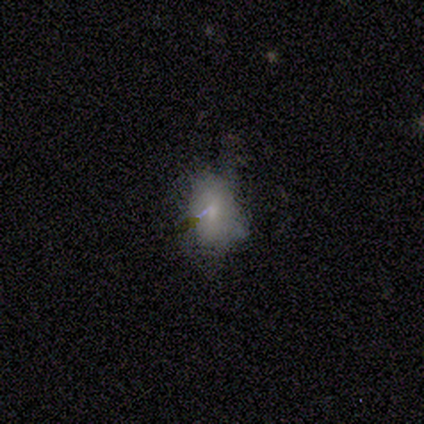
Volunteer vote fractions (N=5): Morphology: type=smooth (100%); roundness=in between (80%); merging=none (60%).